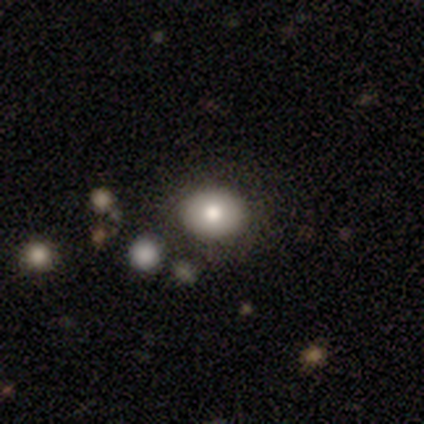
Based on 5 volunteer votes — Smooth or featured?
  - smooth: 80% *
  - featured or disk: 20%
  - star or artifact: 0%
How rounded?
  - in between: 75% *
  - round: 25%
  - cigar-shaped: 0%
Merging?
  - none: 60% *
  - major disturbance: 20%
  - merger: 20%
  - minor disturbance: 0%